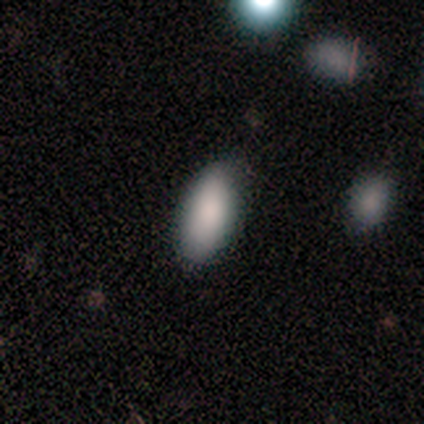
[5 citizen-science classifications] This is clearly a smooth galaxy (100%). How rounded: clearly in between (100%). Merging: clearly none (100%).